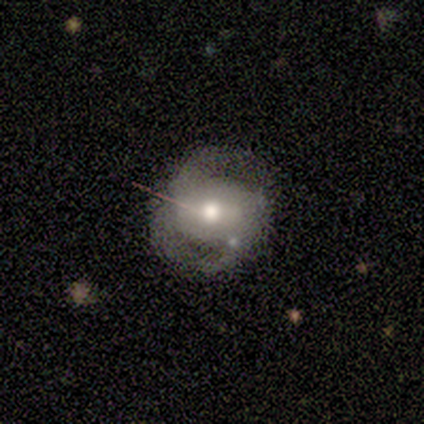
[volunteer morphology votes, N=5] This is clearly a featured or disk galaxy (100%). It is clearly not viewed edge-on (100%). Bar: likely no (60%). Spiral arm pattern: clearly yes (80%). Spiral arm count: likely 2 (75%). Spiral winding: likely loose (75%). Central bulge: likely moderate (60%). Merging: likely none (60%).